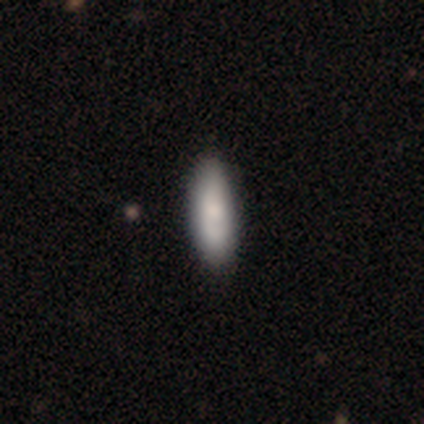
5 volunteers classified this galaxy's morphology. Volunteers were most divided on "how rounded": in between: 80%, cigar-shaped: 20%, round: 0%. More confident: smooth or featured — smooth (100%); merging — none (100%).